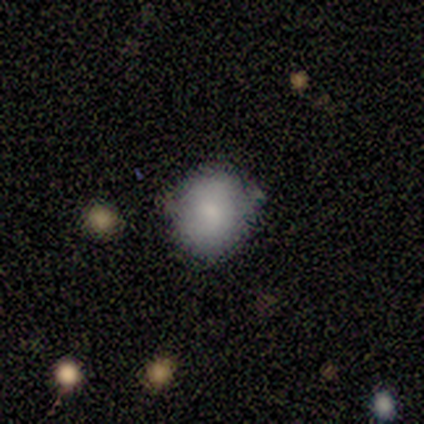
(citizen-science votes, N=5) smooth 80%, featured or disk 20%, star or artifact 0%. Down the decision tree: how rounded — round (100%); merging — none (60%).